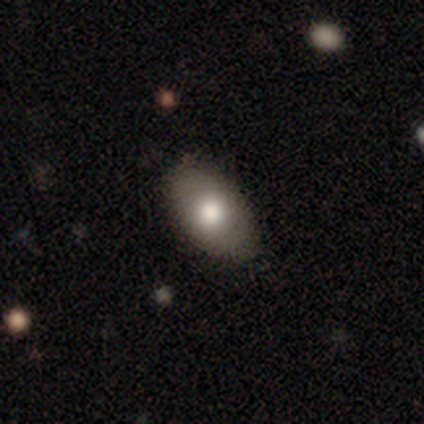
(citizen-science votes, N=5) This appears to be a smooth galaxy with no disk features (100%) that is in between round and cigar-shaped (80%). Merging: none (100%).